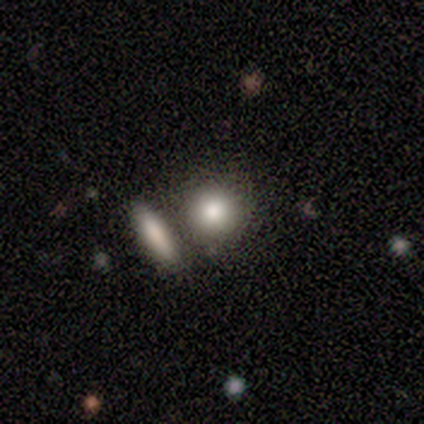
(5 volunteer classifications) Q: Smooth or featured?
A: smooth (100%)
Q: How rounded?
A: round (100%)
Q: Merging?
A: none (100%)